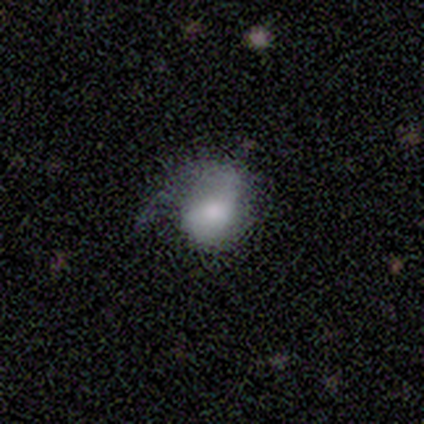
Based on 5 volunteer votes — Q: Smooth or featured?
A: smooth (60%); runner-up: featured or disk (20%)
Q: How rounded?
A: in between (67%); runner-up: round (33%)
Q: Merging?
A: none (50%); runner-up: minor disturbance (25%)